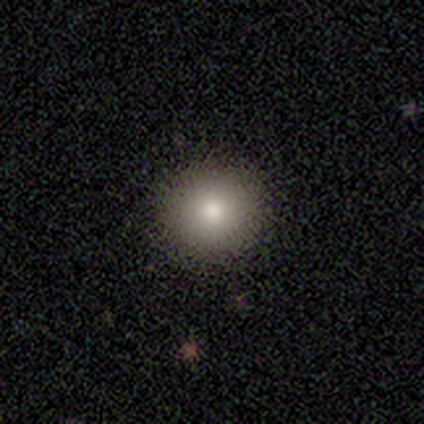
smooth 100%, featured or disk 0%, star or artifact 0%. Down the decision tree: how rounded — round (100%); merging — none (100%).